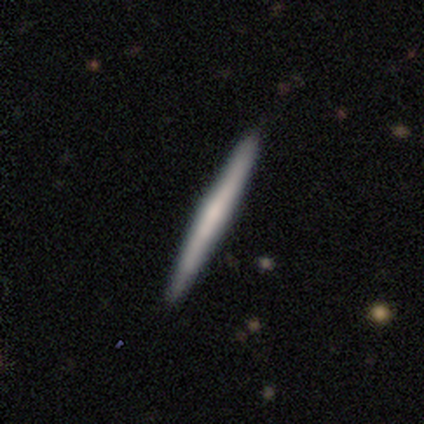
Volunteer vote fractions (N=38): Smooth or featured?
  - smooth: 55% *
  - featured or disk: 39%
  - star or artifact: 5%
How rounded?
  - cigar-shaped: 100% *
  - round: 0%
  - in between: 0%
Merging?
  - none: 94% *
  - minor disturbance: 3%
  - merger: 3%
  - major disturbance: 0%